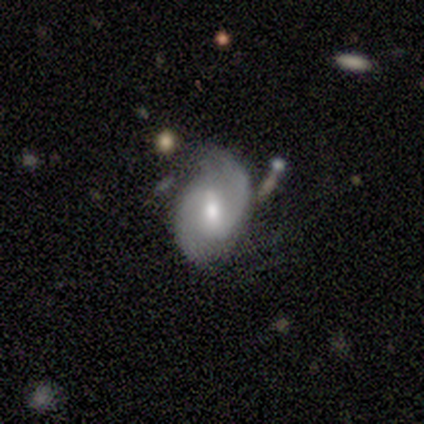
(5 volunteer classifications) Q: Smooth or featured?
A: featured or disk (100%)
Q: Edge-on disk?
A: no (80%); runner-up: yes (20%)
Q: Bar?
A: weak (75%); runner-up: no (25%)
Q: Spiral arms?
A: yes (100%)
Q: Spiral winding?
A: medium (75%); runner-up: loose (25%)
Q: Spiral arm count?
A: 2 (100%)
Q: Bulge size?
A: moderate (50%); tied with: small (50%)
Q: Merging?
A: none (80%); runner-up: major disturbance (20%)